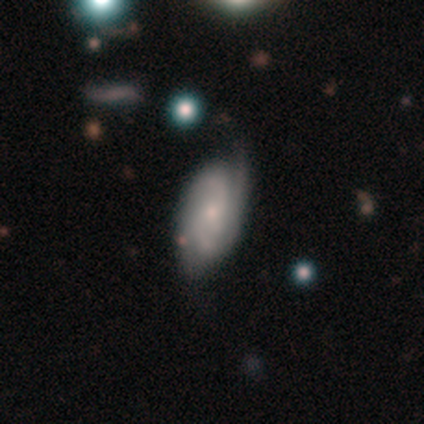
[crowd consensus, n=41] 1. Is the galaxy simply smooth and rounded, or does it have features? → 88% featured or disk, 7% smooth, 5% star or artifact.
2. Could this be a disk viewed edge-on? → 100% no, 0% yes.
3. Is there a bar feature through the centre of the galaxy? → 78% no, 22% weak, 0% strong.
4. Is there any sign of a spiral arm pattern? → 94% yes, 6% no.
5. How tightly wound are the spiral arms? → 53% tight, 35% medium, 12% loose.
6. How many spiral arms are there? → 62% 2, 18% 3, 12% can't tell, 6% 1, 3% 4, 0% more than 4.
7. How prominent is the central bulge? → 53% small, 36% moderate, 6% none, 3% dominant, 3% large.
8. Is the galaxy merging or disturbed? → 64% none, 23% minor disturbance, 8% major disturbance, 5% merger.